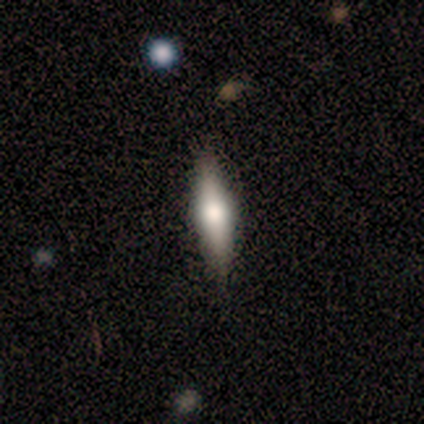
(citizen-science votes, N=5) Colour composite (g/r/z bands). It shows a featured or disk galaxy (60%) viewed edge-on (100%) with a rounded central bulge (100%). Merging: none (100%).